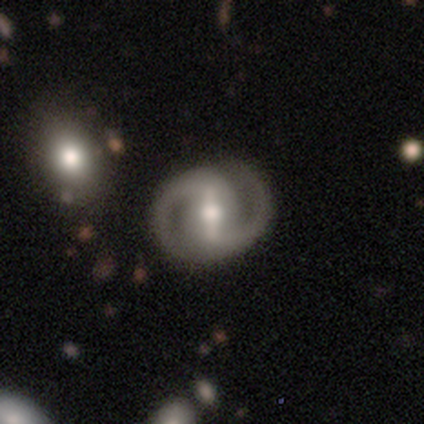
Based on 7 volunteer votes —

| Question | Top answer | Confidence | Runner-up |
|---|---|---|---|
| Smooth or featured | featured or disk | 100% | — |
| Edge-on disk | no | 100% | — |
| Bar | strong | 86% | no (14%) |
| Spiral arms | yes | 86% | no (14%) |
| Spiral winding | tight | 83% | medium (17%) |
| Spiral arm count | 2 | 100% | — |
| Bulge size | moderate | 57% | large (29%) |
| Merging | none | 100% | — |